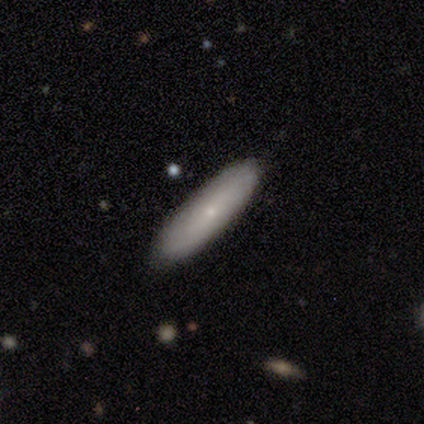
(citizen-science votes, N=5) Smooth or featured? 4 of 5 (80%) said smooth. How rounded? 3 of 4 (75%) said cigar-shaped. Merging? 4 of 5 (80%) said none.